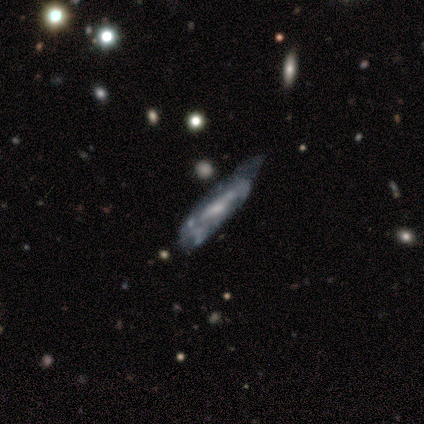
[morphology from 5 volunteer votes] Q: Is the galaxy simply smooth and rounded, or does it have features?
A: featured or disk — 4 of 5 (80%).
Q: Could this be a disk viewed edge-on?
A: no — 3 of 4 (75%).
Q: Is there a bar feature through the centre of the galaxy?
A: weak — 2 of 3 (67%).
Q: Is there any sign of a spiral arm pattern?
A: yes — 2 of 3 (67%).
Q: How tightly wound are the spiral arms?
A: tight — 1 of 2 (50%, tied with medium).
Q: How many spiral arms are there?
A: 2 — 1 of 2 (50%, tied with can't tell).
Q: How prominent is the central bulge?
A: moderate — 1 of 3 (33%, tied with small and none).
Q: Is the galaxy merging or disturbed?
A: minor disturbance — 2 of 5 (40%, tied with merger).